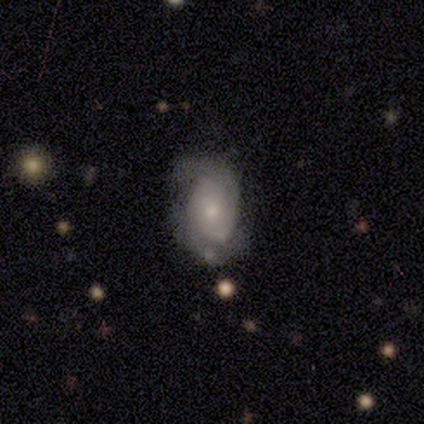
featured or disk 88%, smooth 12%, star or artifact 0%. Down the decision tree: edge-on disk — no (86%); bar — no (83%); spiral arms — yes (100%); spiral arm count — 2 (67%); spiral winding — tight (100%); bulge size — small (67%); merging — minor disturbance (50%).